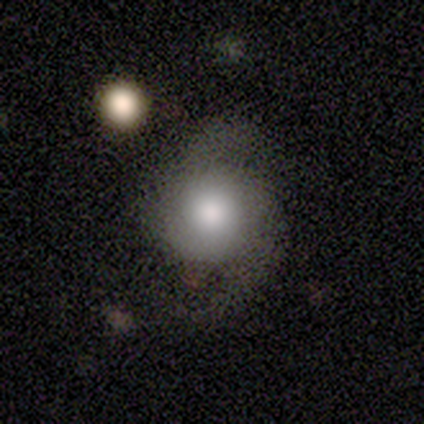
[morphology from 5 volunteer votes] Volunteers were most divided on "spiral winding": medium: 60%, loose: 40%, tight: 0%. More confident: smooth or featured — featured or disk (100%); edge-on disk — no (100%); spiral arms — yes (100%); bar — no (80%); bulge size — large (80%); merging — none (80%); spiral arm count — 2 (60%).